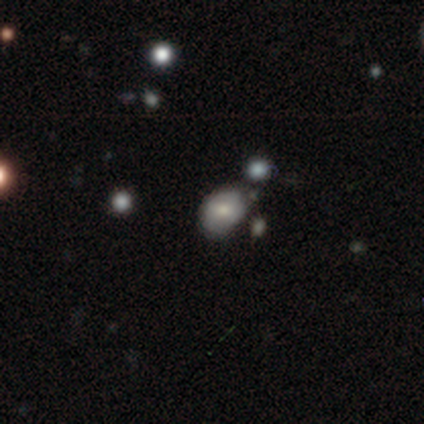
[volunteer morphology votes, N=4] Smooth or featured? 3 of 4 (75%) said smooth. How rounded? 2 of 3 (67%) said in between. Merging? 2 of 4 (50%, tied with major disturbance) said none.